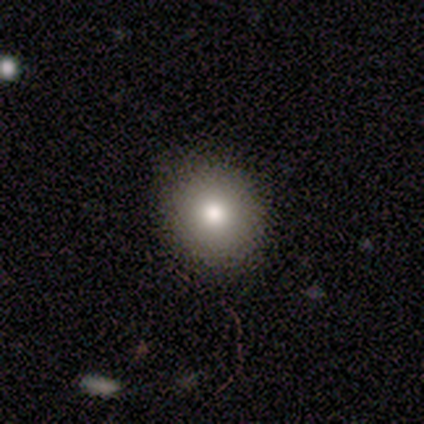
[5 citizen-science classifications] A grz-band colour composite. It shows a smooth galaxy with no disk features (80%) that is round (100%). Merging: none (75%).